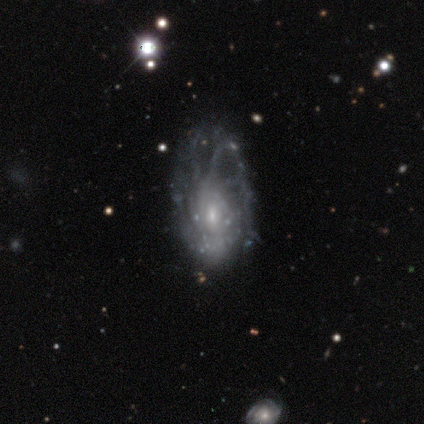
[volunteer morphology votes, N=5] smooth_or_featured: featured or disk (p=1.00)
disk_edge_on: no (p=1.00)
bar: no (p=0.80) [alt: weak p=0.20]
has_spiral_arms: yes (p=0.80) [alt: no p=0.20]
spiral_winding: tight (p=0.50) [alt: medium p=0.25]
spiral_arm_count: can't tell (p=1.00)
bulge_size: small (p=0.60) [alt: moderate p=0.40]
merging: none (p=0.60) [alt: minor disturbance p=0.20]